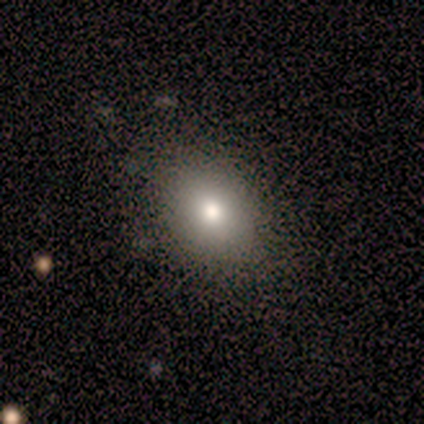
Smooth or featured? smooth (100%)
How rounded? in between (60%)
Merging? none (100%)